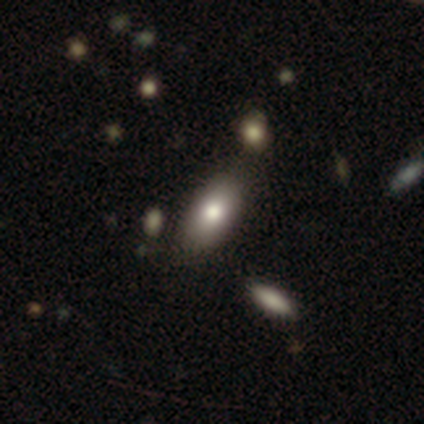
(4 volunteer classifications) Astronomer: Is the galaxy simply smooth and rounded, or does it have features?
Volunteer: smooth — 100%.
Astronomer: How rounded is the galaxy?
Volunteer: in between — 100%.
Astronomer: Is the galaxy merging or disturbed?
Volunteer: none — 100%.